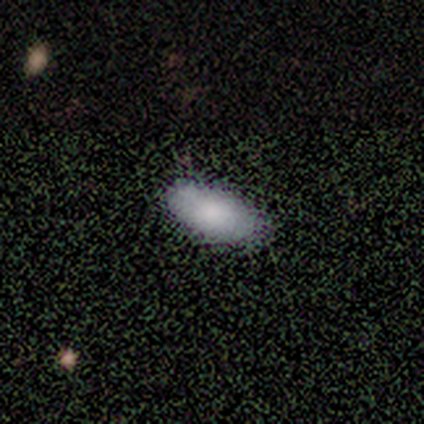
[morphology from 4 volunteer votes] Consensus on every question: smooth or featured — smooth (100%); how rounded — in between (100%); merging — none (100%).